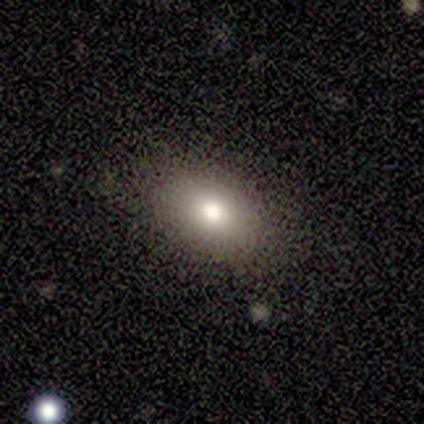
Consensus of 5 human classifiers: This is clearly a smooth galaxy (100%). How rounded: clearly in between (100%). Merging: clearly none (80%).